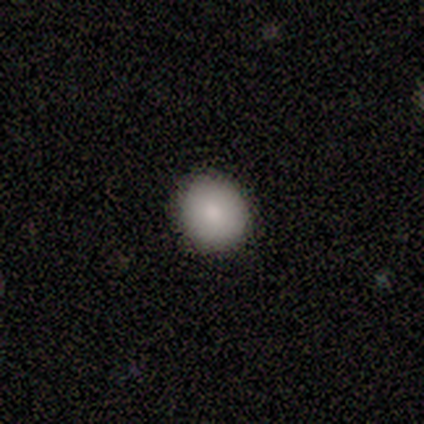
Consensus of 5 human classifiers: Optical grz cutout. It shows a smooth galaxy with no disk features (80%) that is round (75%). Merging: none (100%).